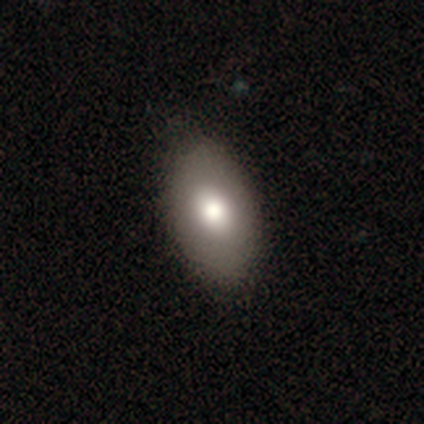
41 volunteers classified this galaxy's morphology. Smooth or featured? smooth (73%)
How rounded? in between (97%)
Merging? none (85%)